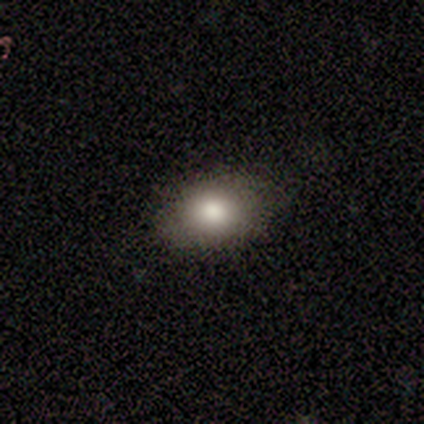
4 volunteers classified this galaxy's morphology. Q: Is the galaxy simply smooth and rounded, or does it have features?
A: smooth — 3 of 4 (75%).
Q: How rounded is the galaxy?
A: in between — 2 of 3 (67%).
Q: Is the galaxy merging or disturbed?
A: none — 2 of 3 (67%).